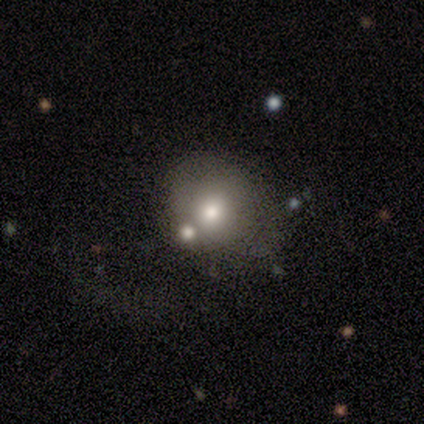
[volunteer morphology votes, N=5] This appears to be a featured or disk galaxy (40%, tied with star or artifact) with a weak bar (50%, tied with no), no spiral arms (100%) and a moderate central bulge (50%, tied with none). Merging: none (67%).